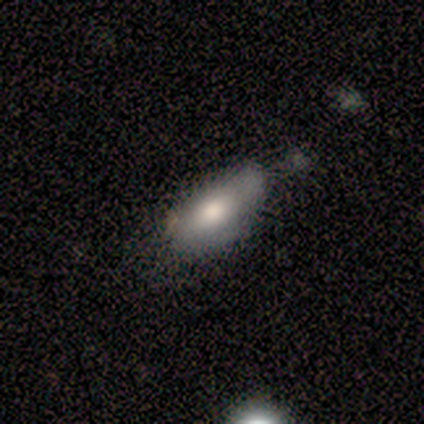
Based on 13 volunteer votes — Morphology: type=smooth (69%); roundness=in between (89%); merging=minor disturbance (42%).